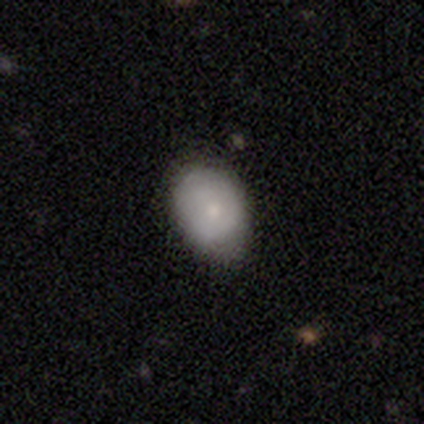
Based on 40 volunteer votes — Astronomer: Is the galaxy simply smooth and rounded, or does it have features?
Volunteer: smooth — 65%.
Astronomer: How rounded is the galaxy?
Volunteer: in between — 77%.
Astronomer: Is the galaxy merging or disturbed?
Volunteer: none — 82%.